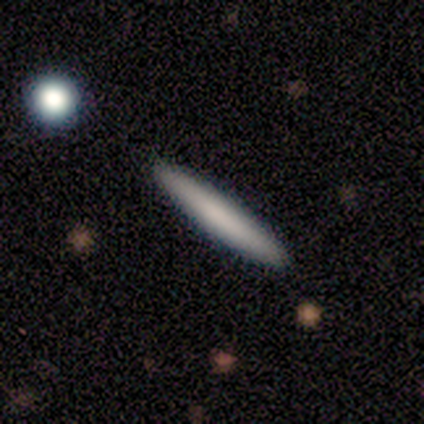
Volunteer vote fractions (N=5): This is likely a smooth galaxy (60%). How rounded: clearly cigar-shaped (100%). Merging: clearly none (100%).